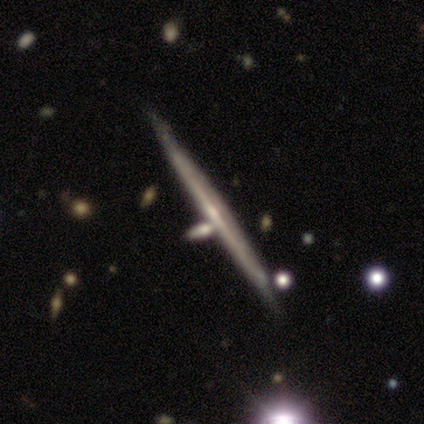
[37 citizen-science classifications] Smooth or featured: featured or disk — 81% (smooth — 11%)
Edge-on disk: yes — 93% (no — 7%)
Edge-on bulge: none — 68% (rounded — 29%)
Merging: none — 56% (merger — 24%)